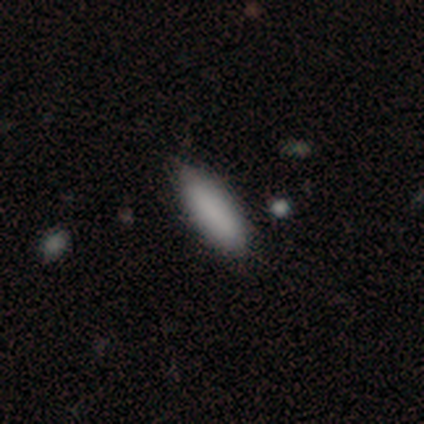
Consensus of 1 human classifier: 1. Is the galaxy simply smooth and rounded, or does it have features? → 100% smooth, 0% featured or disk, 0% star or artifact.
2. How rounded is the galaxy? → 100% cigar-shaped, 0% round, 0% in between.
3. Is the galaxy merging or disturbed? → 100% none, 0% minor disturbance, 0% major disturbance, 0% merger.